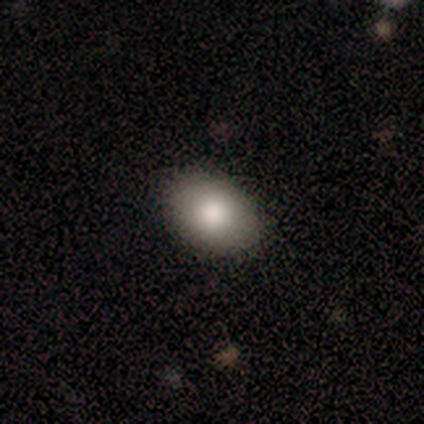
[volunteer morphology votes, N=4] smooth-or-featured: smooth: 100% | featured or disk: 0% | star or artifact: 0%
  how-rounded: in between: 75% | round: 25% | cigar-shaped: 0%
  merging: none: 100% | minor disturbance: 0% | major disturbance: 0% | merger: 0%